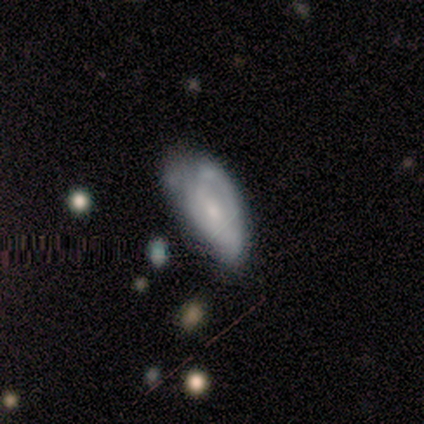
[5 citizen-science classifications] Smooth or featured?
  - featured or disk: 60% *
  - smooth: 40%
  - star or artifact: 0%
Edge-on disk?
  - no: 100% *
  - yes: 0%
Bar?
  - no: 67% *
  - weak: 33%
  - strong: 0%
Spiral arms?
  - no: 100% *
  - yes: 0%
Bulge size?
  - small: 67% *
  - moderate: 33%
  - dominant: 0%
  - large: 0%
  - none: 0%
Merging?
  - minor disturbance: 60% *
  - none: 20%
  - major disturbance: 20%
  - merger: 0%